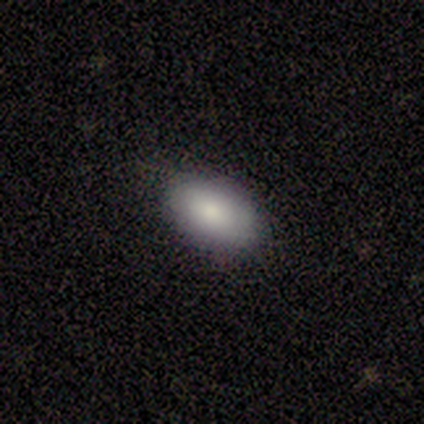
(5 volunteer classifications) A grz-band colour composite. It shows a smooth galaxy with no disk features (60%) that is in between round and cigar-shaped (67%). Merging: none (75%).